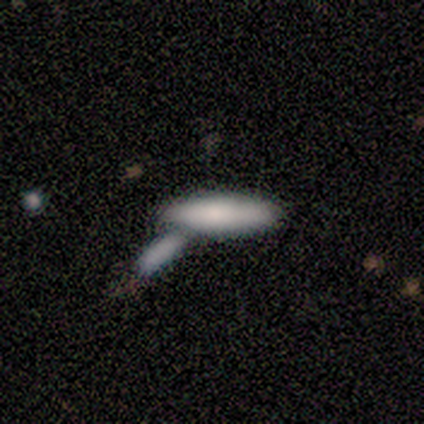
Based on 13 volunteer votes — Overall: smooth (69%; featured or disk 31%). How rounded: cigar-shaped (56%; in between 44%). Merging: merger (46%; none 31%).